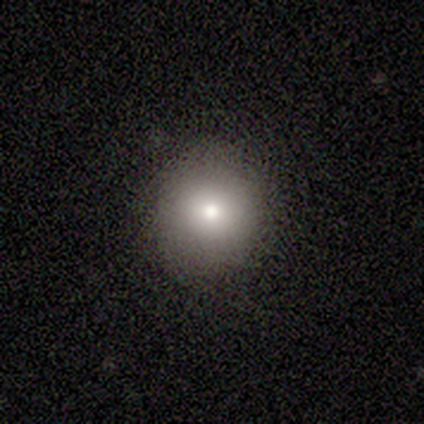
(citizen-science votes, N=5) A smooth galaxy with no disk features (100%) that is round (100%).

Vote fractions:
- Smooth or featured? smooth: 100% / featured or disk: 0% / star or artifact: 0%
- How rounded? round: 100% / in between: 0% / cigar-shaped: 0%
- Merging? none: 100% / minor disturbance: 0% / major disturbance: 0% / merger: 0%